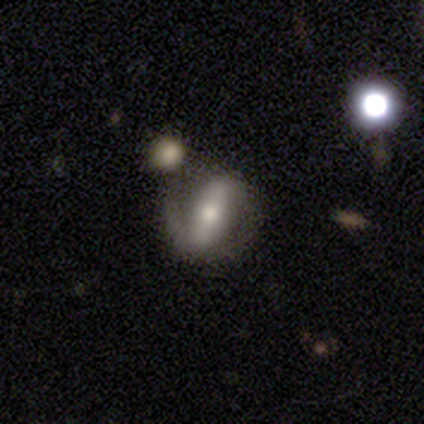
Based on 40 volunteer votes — smooth_or_featured: featured or disk (p=0.78) [alt: smooth p=0.15]
disk_edge_on: no (p=0.90) [alt: yes p=0.10]
bar: strong (p=0.64) [alt: weak p=0.21]
has_spiral_arms: yes (p=0.68) [alt: no p=0.32]
spiral_winding: loose (p=0.63) [alt: tight p=0.32]
spiral_arm_count: 2 (p=0.53) [alt: 1 p=0.42]
bulge_size: moderate (p=0.54) [alt: small p=0.46]
merging: none (p=0.51) [alt: minor disturbance p=0.24]